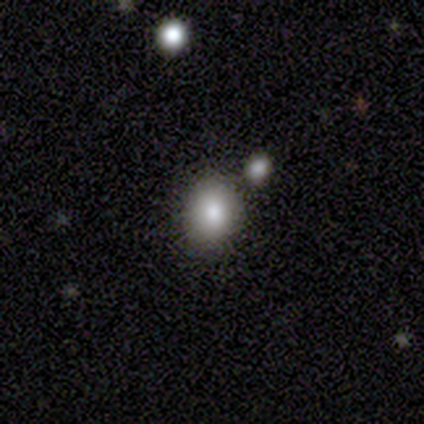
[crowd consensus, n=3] smooth_or_featured: smooth (p=0.67) [alt: star or artifact p=0.33]
how_rounded: round (p=0.50) [tied with: in between p=0.50]
merging: none (p=0.50) [tied with: major disturbance p=0.50]